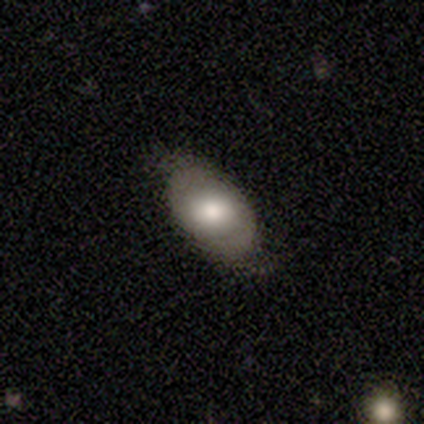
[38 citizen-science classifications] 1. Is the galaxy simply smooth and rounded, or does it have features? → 63% smooth, 34% featured or disk, 3% star or artifact.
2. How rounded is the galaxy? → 100% in between, 0% round, 0% cigar-shaped.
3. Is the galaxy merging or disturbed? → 49% none, 24% minor disturbance, 0% major disturbance, 0% merger.